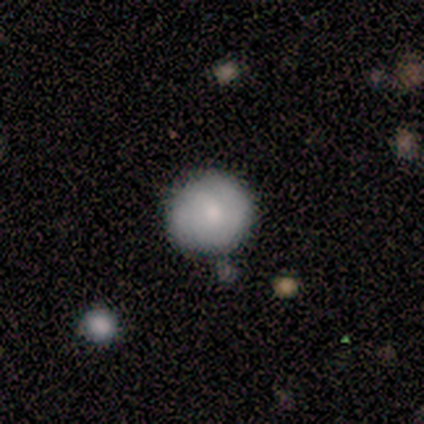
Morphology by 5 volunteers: Smooth or featured: smooth — 60% (featured or disk — 20%)
How rounded: round — 100%
Merging: none — 75% (merger — 25%)